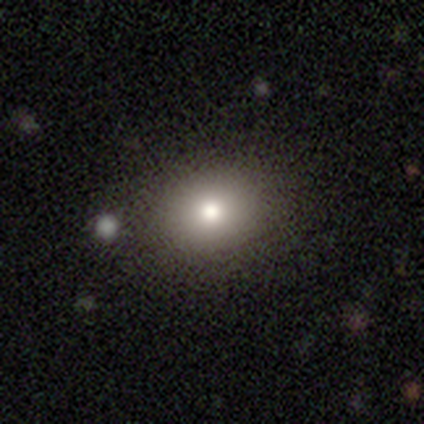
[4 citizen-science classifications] smooth 75%, featured or disk 25%, star or artifact 0%. Down the decision tree: how rounded — round (100%); merging — none (100%).